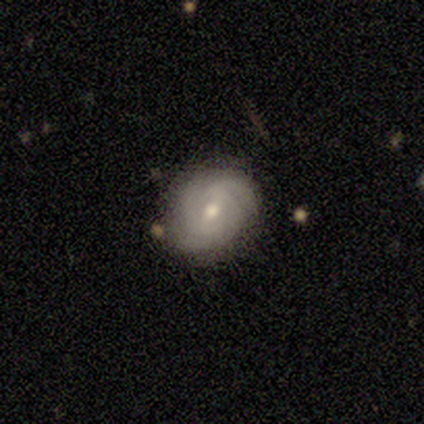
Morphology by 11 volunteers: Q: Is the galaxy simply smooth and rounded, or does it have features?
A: featured or disk — 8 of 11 (73%).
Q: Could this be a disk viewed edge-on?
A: no — 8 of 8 (100%).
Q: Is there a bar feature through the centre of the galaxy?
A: weak — 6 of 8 (75%).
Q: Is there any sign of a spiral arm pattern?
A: yes — 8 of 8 (100%).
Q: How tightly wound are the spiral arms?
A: tight — 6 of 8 (75%).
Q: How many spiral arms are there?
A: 2 — 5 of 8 (62%).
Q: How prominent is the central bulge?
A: moderate — 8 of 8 (100%).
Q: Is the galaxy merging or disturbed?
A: none — 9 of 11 (82%).